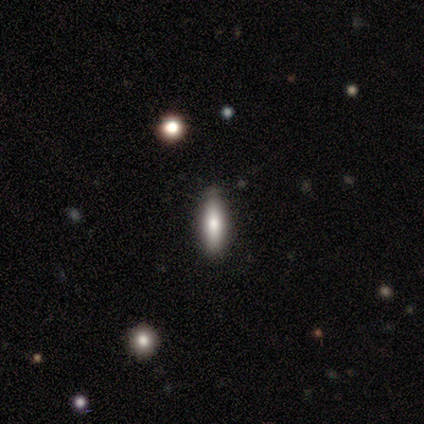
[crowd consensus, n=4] This is possibly a smooth galaxy (50%, tied with featured or disk). How rounded: clearly cigar-shaped (100%). Merging: clearly none (100%).